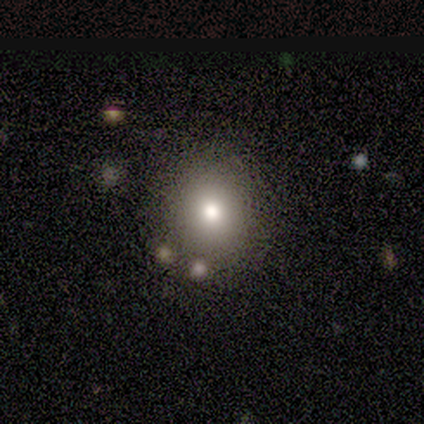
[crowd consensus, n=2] Smooth or featured? 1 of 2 (50%, tied with featured or disk) said smooth. How rounded? 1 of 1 (100%) said in between. Merging? 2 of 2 (100%) said none.